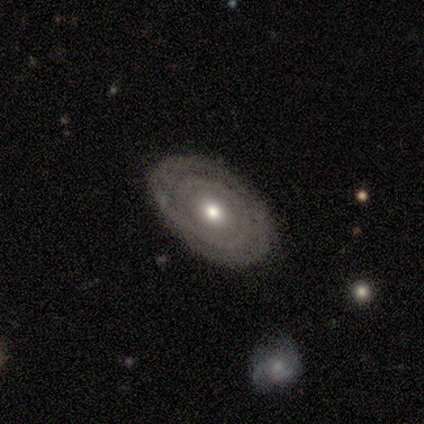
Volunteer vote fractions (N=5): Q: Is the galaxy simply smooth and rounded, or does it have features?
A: featured or disk — 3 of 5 (60%).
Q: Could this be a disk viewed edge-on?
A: no — 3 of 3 (100%).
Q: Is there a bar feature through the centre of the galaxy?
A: no — 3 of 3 (100%).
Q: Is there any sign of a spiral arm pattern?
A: no — 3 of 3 (100%).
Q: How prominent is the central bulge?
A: moderate — 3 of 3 (100%).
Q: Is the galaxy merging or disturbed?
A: none — 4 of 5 (80%).